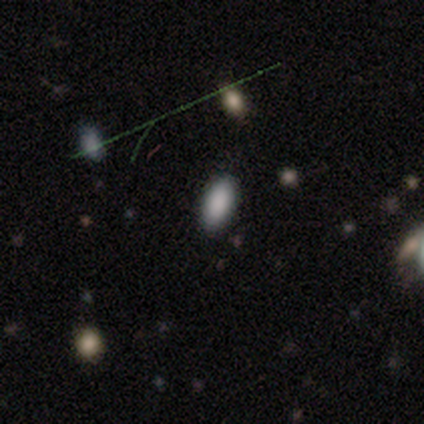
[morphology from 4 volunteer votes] This appears to be a smooth galaxy with no disk features (50%) that is in between round and cigar-shaped (100%). Merging: none (67%).